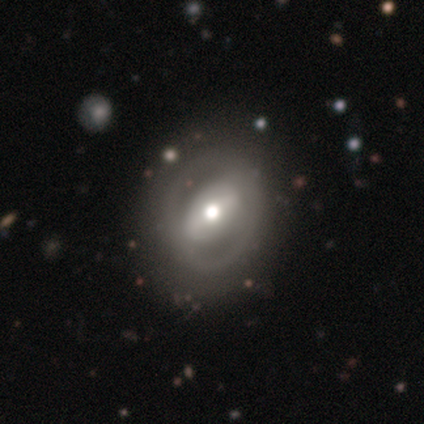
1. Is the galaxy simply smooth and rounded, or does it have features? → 84% featured or disk, 8% smooth, 8% star or artifact.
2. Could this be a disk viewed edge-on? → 91% no, 9% yes.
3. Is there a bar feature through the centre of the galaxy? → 48% strong, 45% weak, 7% no.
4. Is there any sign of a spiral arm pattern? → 69% no, 31% yes.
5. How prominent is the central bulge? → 66% moderate, 21% large, 10% small, 3% dominant, 0% none.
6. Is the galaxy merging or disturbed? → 60% none, 23% minor disturbance, 14% major disturbance, 3% merger.